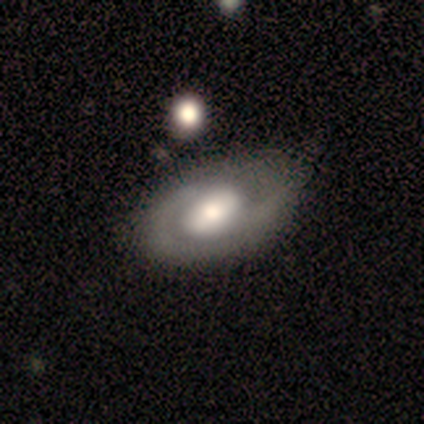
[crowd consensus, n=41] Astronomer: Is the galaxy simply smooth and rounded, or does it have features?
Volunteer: featured or disk — 83%.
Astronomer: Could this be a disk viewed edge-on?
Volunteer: no — 88%.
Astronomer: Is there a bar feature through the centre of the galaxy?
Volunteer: no — 50% (runner-up: weak, 37%).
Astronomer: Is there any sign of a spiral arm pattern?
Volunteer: yes — 70%.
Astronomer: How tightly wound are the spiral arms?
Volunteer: tight — 48% (runner-up: medium, 29%).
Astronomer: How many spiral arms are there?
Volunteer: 2 — 81%.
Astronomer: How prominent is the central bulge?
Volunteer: large — 47% (runner-up: moderate, 33%).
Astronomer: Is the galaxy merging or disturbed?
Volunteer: none — 34% (runner-up: minor disturbance, 15%).